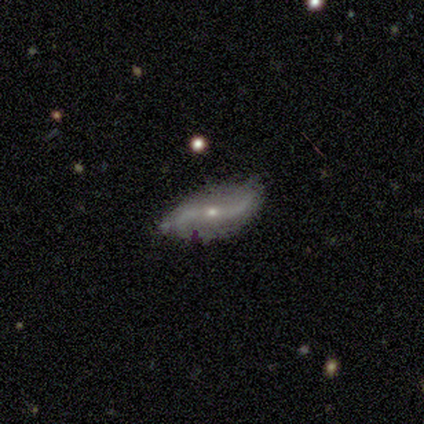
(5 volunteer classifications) Smooth or featured: featured or disk — 100%
Edge-on disk: no — 80% (yes — 20%)
Bar: no — 75% (weak — 25%)
Spiral arms: yes — 100%
Spiral winding: loose — 100%
Spiral arm count: 2 — 100%
Bulge size: small — 100%
Merging: none — 100%